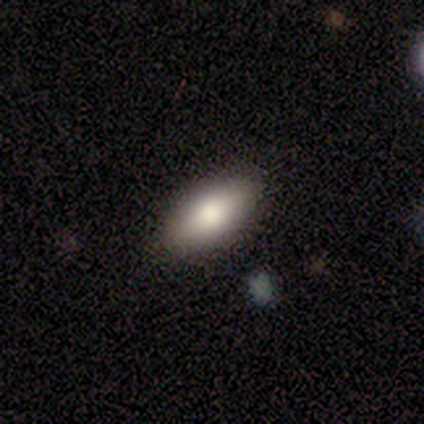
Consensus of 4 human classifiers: smooth_or_featured: smooth (p=0.50) [tied with: featured or disk p=0.50]
how_rounded: in between (p=1.00)
merging: none (p=0.75) [alt: minor disturbance p=0.25]